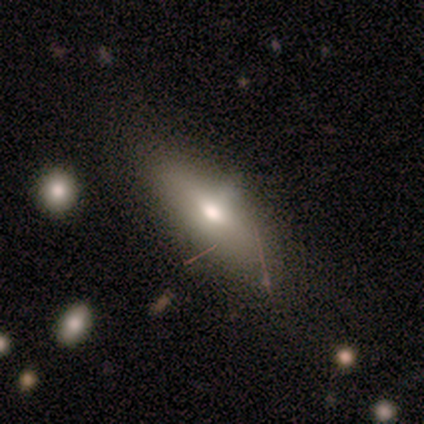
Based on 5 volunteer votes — This is clearly a smooth galaxy (80%). How rounded: likely in between (75%). Merging: clearly none (80%).